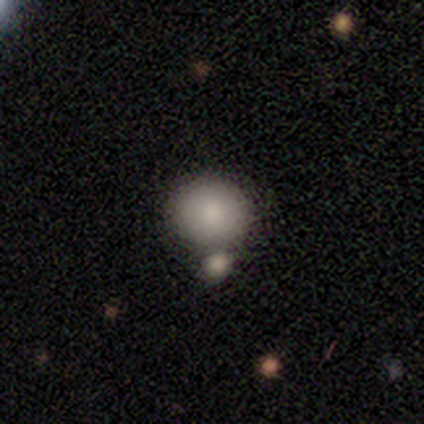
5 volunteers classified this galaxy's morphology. Smooth or featured? 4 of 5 (80%) said smooth. How rounded? 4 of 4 (100%) said round. Merging? 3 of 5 (60%) said none.